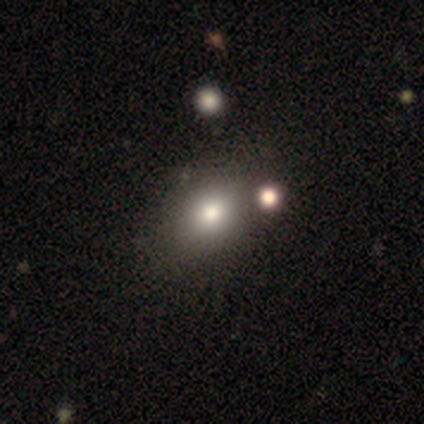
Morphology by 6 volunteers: Smooth or featured: smooth — 50% (featured or disk — 33%)
How rounded: in between — 67% (round — 33%)
Merging: none — 60% (minor disturbance — 20%)